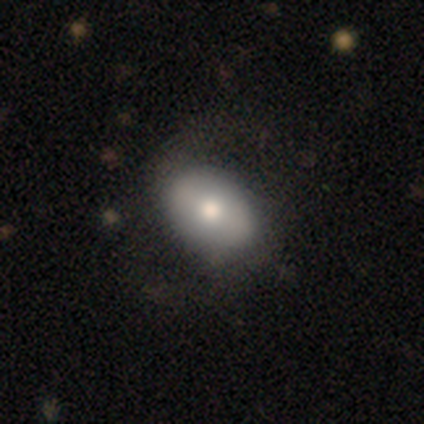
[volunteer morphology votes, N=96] Smooth or featured?
  - smooth: 60% *
  - featured or disk: 31%
  - star or artifact: 8%
How rounded?
  - in between: 88% *
  - round: 10%
  - cigar-shaped: 2%
Merging?
  - none: 67% *
  - major disturbance: 18%
  - minor disturbance: 12%
  - merger: 2%